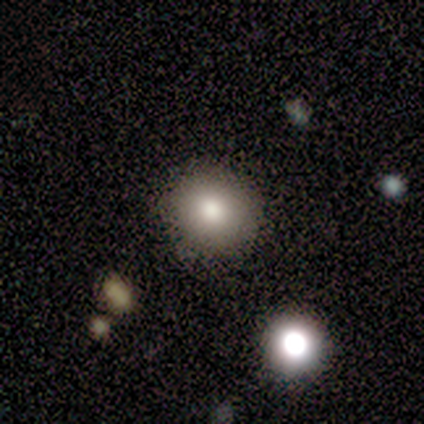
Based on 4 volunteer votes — Q: Smooth or featured?
A: smooth (50%); runner-up: featured or disk (25%)
Q: How rounded?
A: round (100%)
Q: Merging?
A: none (100%)